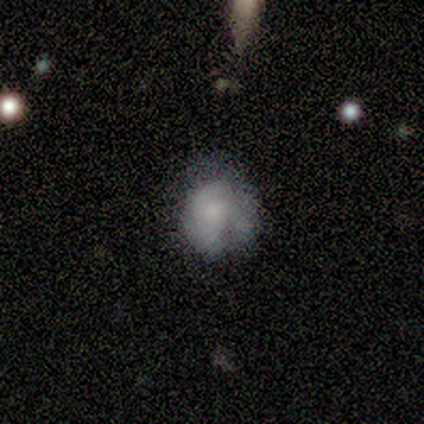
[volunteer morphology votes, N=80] Volunteers were most divided on "merging": none: 19%, minor disturbance: 18%, major disturbance: 11%, merger: 5%. More confident: how rounded — round (67%); smooth or featured — smooth (56%).